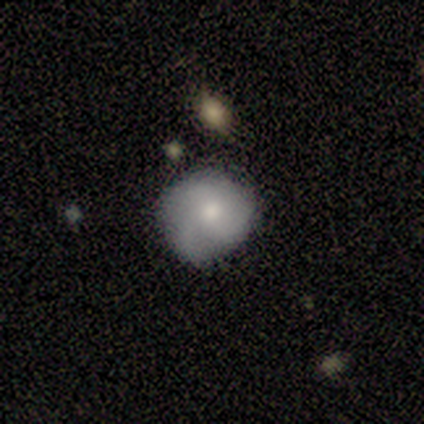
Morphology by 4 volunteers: type=smooth (75%); roundness=round (67%); merging=none (67%).